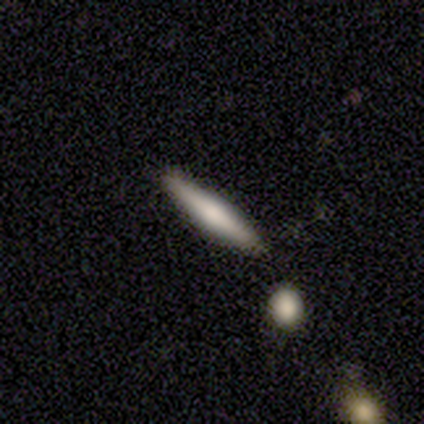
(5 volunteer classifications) smooth 60%, featured or disk 40%, star or artifact 0%. Down the decision tree: how rounded — cigar-shaped (67%); merging — none (80%).